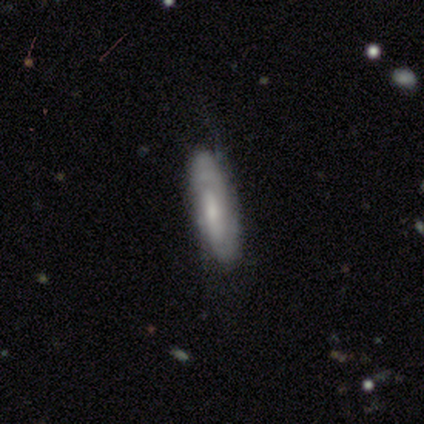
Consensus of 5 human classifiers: A featured or disk galaxy (60%) with no bar (67%), 2 (50%, tied with can't tell) tight (50%, tied with medium) spiral arms (67%) and a small central bulge (100%). Merging: minor disturbance (80%).